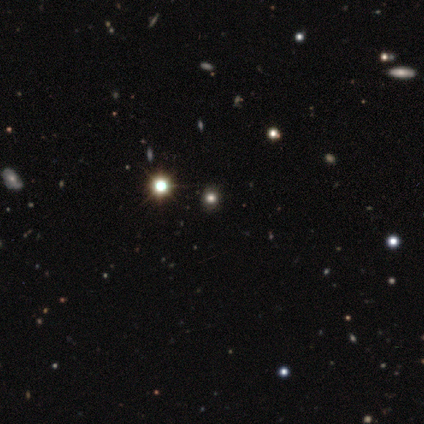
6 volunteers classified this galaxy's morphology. Q: Smooth or featured?
A: smooth (67%); runner-up: star or artifact (33%)
Q: How rounded?
A: round (75%); runner-up: in between (25%)
Q: Merging?
A: none (75%); runner-up: minor disturbance (25%)